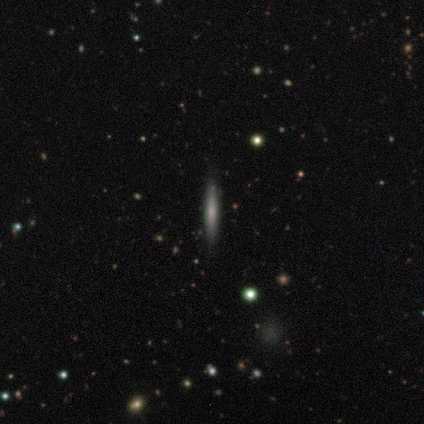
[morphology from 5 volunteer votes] Q: Smooth or featured?
A: smooth (80%); runner-up: featured or disk (20%)
Q: How rounded?
A: cigar-shaped (100%)
Q: Merging?
A: none (100%)